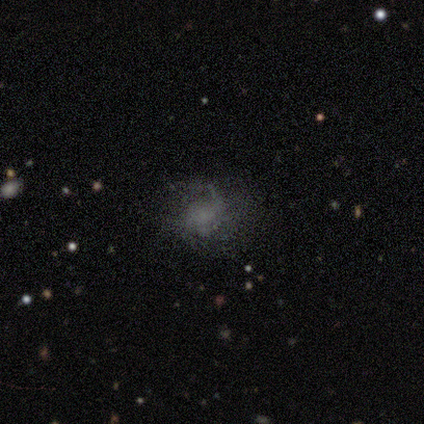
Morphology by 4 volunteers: Smooth or featured? 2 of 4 (50%) said star or artifact.